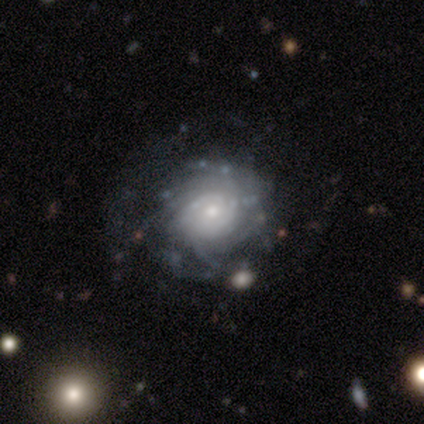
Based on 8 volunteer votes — Smooth or featured? featured or disk (100%)
Edge-on disk? no (100%)
Bar? weak (50%, tied with no)
Spiral arms? yes (100%)
Spiral winding? tight (75%)
Spiral arm count? more than 4 (50%)
Bulge size? small (50%)
Merging? none (75%)